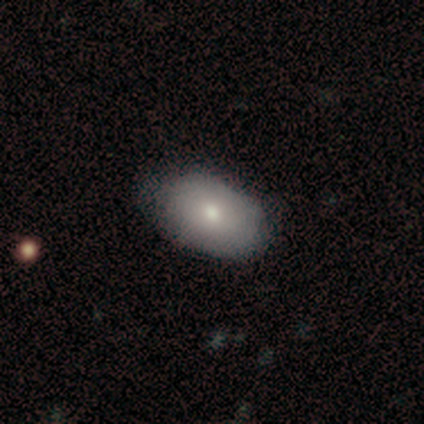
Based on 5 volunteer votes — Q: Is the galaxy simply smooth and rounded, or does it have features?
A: featured or disk — 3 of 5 (60%).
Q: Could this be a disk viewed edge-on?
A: no — 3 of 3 (100%).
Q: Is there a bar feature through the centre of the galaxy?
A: no — 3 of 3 (100%).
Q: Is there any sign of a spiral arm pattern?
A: no — 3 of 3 (100%).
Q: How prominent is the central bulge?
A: small — 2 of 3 (67%).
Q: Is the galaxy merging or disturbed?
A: none — 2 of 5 (40%, tied with minor disturbance).